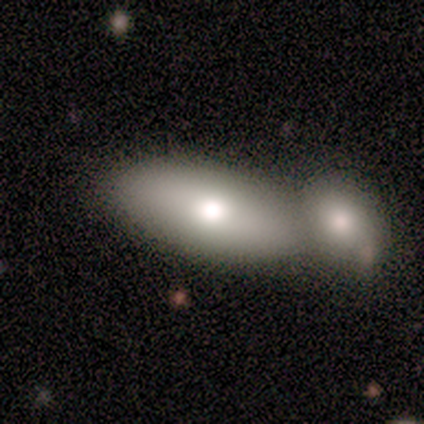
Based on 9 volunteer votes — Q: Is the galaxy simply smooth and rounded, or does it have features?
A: smooth — 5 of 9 (56%).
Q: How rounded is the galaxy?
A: in between — 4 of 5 (80%).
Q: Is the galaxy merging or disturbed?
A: merger — 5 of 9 (56%).